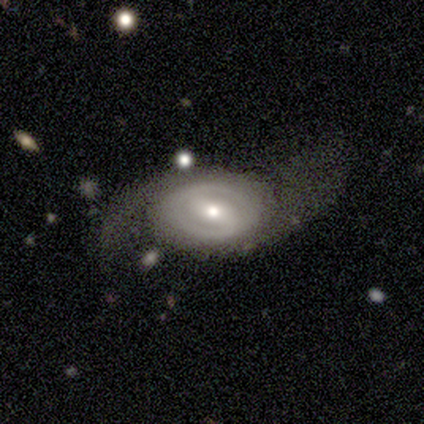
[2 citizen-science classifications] Smooth or featured? featured or disk (100%)
Edge-on disk? no (100%)
Bar? strong (50%, tied with weak)
Spiral arms? yes (100%)
Spiral winding? tight (50%, tied with loose)
Spiral arm count? 2 (100%)
Bulge size? moderate (100%)
Merging? none (50%, tied with major disturbance)